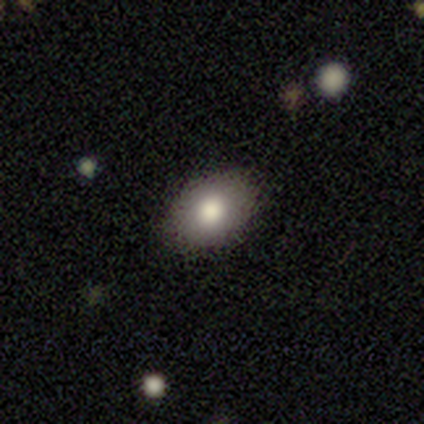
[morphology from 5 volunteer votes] A smooth galaxy with no disk features (100%) that is in between round and cigar-shaped (60%).

Vote fractions:
- Smooth or featured? smooth: 100% / featured or disk: 0% / star or artifact: 0%
- How rounded? in between: 60% / round: 40% / cigar-shaped: 0%
- Merging? none: 100% / minor disturbance: 0% / major disturbance: 0% / merger: 0%